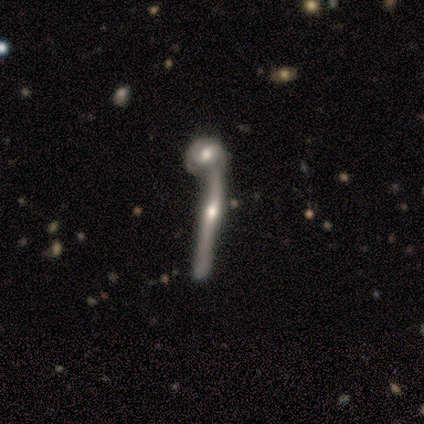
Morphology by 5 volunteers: type=featured or disk (60%); edge-on=yes (67%); edge-on bulge=rounded (100%); merging=minor disturbance (40%, tied with merger).